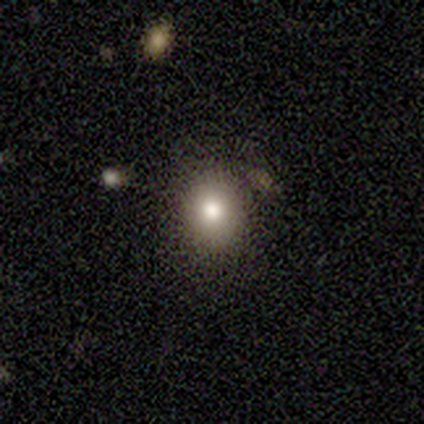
Overall: smooth (40%, tied with featured or disk). How rounded: round (100%). Merging: none (75%).